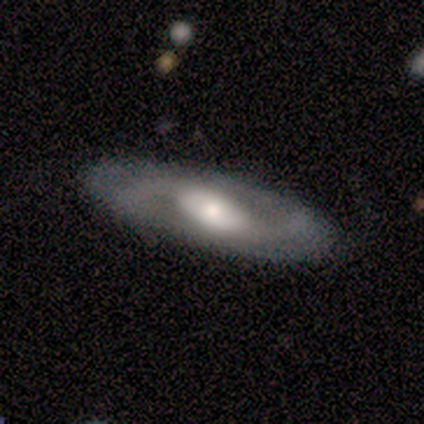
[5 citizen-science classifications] Morphology: type=featured or disk (100%); edge-on=no (100%); bar=weak (40%, tied with no); spiral arms=yes (100%); winding=loose (60%); arm count=2 (100%); bulge=moderate (60%); merging=none (100%).